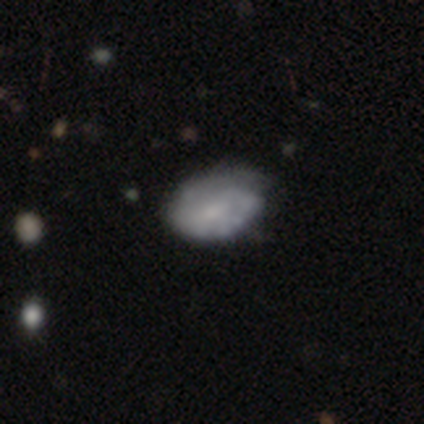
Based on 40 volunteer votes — smooth-or-featured: featured or disk: 50% | smooth: 32% | star or artifact: 18%
  disk-edge-on: no: 95% | yes: 5%
    bar: no: 53% | weak: 47% | strong: 0%
    has-spiral-arms: yes: 63% | no: 37%
      spiral-winding: tight: 42% | medium: 33% | loose: 25%
      spiral-arm-count: 2: 42% (tied) | can't tell: 42% (tied) | 1: 8% | more than 4: 8% | 3: 0% | 4: 0%
    bulge-size: small: 58% | none: 21% | moderate: 16% | large: 5% | dominant: 0%
  merging: none: 52% | minor disturbance: 42% | major disturbance: 3% | merger: 3%